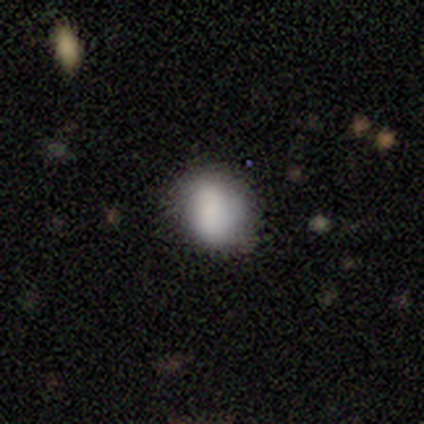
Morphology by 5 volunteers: Smooth or featured? smooth (80%)
How rounded? round (100%)
Merging? none (80%)